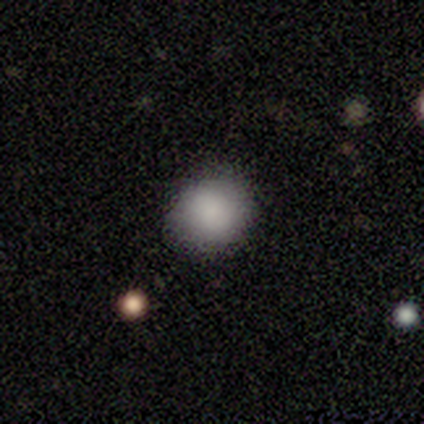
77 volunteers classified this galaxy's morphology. This appears to be a smooth galaxy with no disk features (95%) that is round (77%). Merging: none (55%).